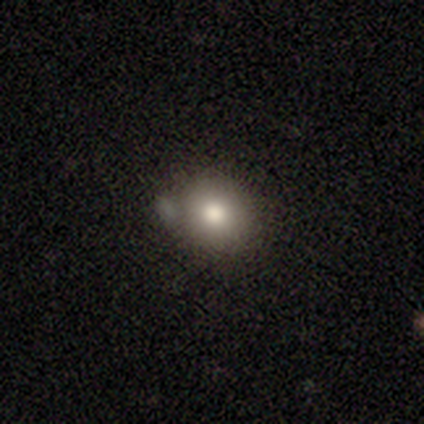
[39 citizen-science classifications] A smooth galaxy with no disk features (77%) that is round (87%). Merging: none (46%).